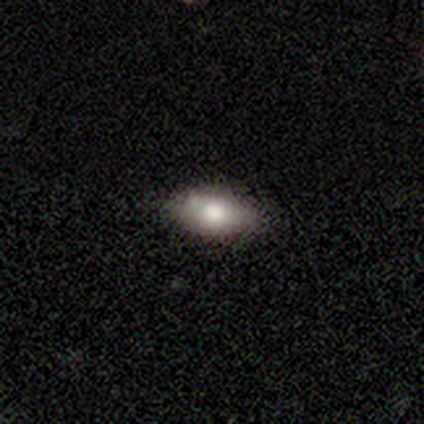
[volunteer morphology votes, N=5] A smooth galaxy with no disk features (40%, tied with featured or disk) that is in between round and cigar-shaped (100%). Merging: none (75%).